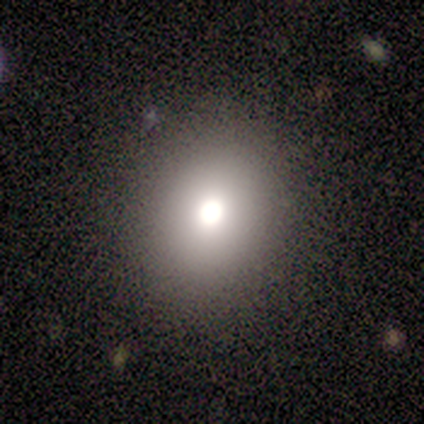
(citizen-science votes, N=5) Smooth or featured?
  - smooth: 60% *
  - featured or disk: 20%
  - star or artifact: 20%
How rounded?
  - round: 100% *
  - in between: 0%
  - cigar-shaped: 0%
Merging?
  - none: 100% *
  - minor disturbance: 0%
  - major disturbance: 0%
  - merger: 0%